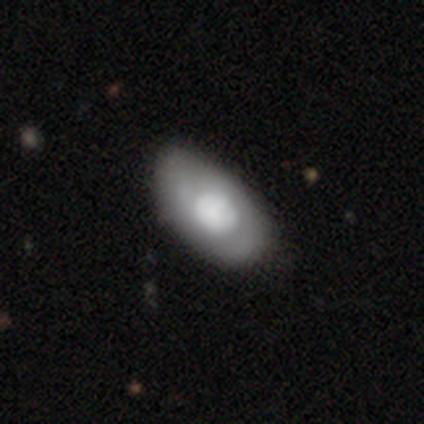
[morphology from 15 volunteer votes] This appears to be a smooth galaxy with no disk features (60%) that is in between round and cigar-shaped (89%). Merging: none (53%).